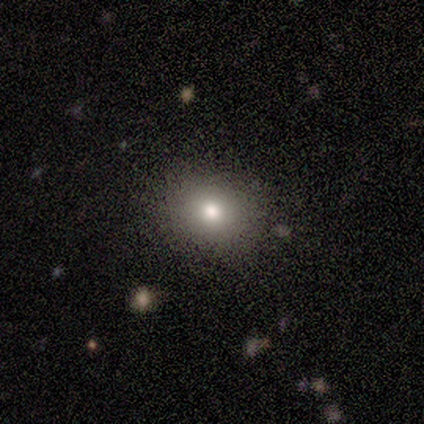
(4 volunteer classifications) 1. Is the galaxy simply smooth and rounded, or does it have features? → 75% smooth, 25% star or artifact, 0% featured or disk.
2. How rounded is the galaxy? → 67% round, 33% in between, 0% cigar-shaped.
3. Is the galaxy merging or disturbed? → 100% none, 0% minor disturbance, 0% major disturbance, 0% merger.